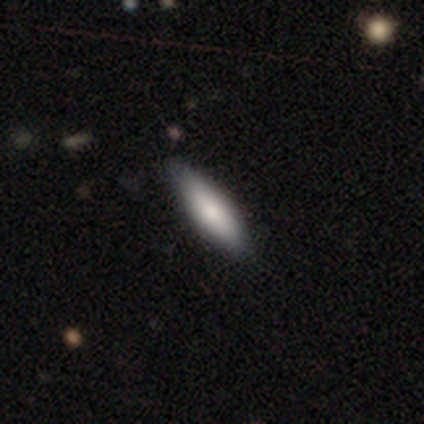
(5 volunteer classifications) A smooth galaxy with no disk features (60%) that is in between round and cigar-shaped (67%). Merging: none (75%).